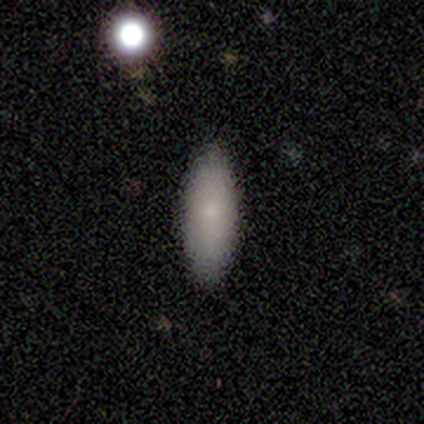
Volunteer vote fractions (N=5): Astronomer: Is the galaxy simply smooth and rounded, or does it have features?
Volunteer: smooth — 100%.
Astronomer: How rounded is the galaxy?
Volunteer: in between — 60% (runner-up: cigar-shaped, 40%).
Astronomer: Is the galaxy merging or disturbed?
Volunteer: none — 80%.